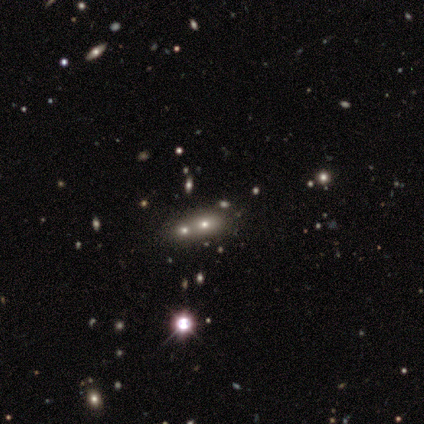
Q: Smooth or featured?
A: star or artifact (46%); runner-up: smooth (38%)